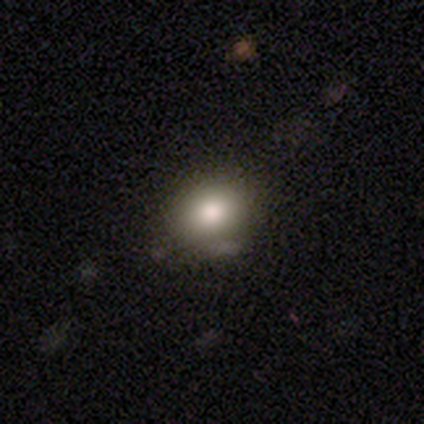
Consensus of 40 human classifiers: This appears to be a smooth galaxy with no disk features (82%) that is round (70%). Merging: none (84%).